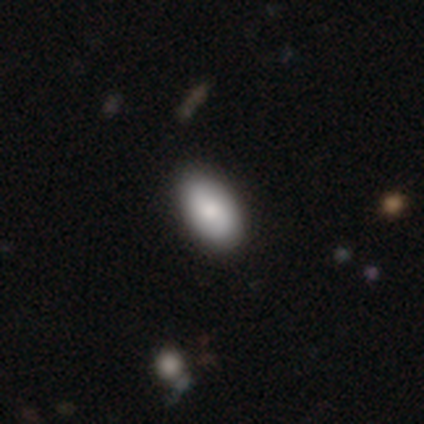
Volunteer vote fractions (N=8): Smooth or featured: smooth — 62% (featured or disk — 38%)
How rounded: in between — 100%
Merging: none — 100%